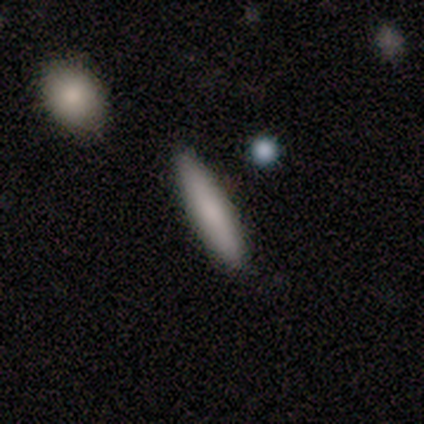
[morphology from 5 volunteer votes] Smooth or featured? 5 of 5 (100%) said smooth. How rounded? 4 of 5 (80%) said cigar-shaped. Merging? 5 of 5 (100%) said none.